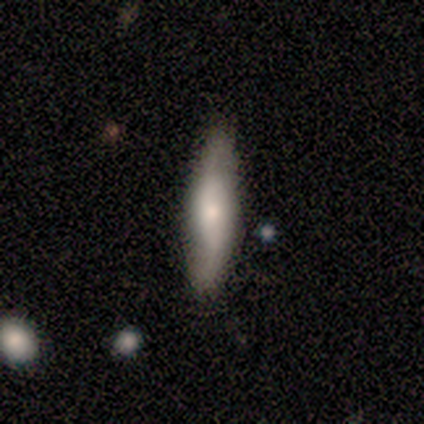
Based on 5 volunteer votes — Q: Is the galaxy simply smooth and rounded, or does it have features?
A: smooth — 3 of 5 (60%).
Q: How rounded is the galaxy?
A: cigar-shaped — 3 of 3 (100%).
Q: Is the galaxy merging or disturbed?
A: none — 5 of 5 (100%).